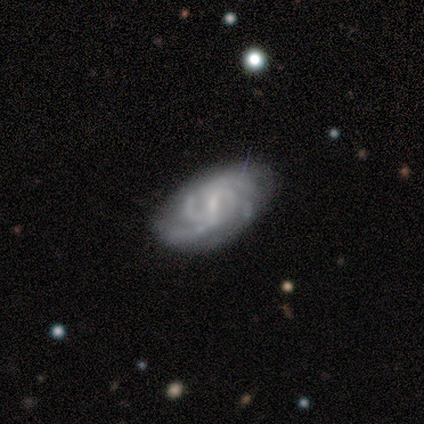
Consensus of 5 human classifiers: Smooth or featured? 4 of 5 (80%) said featured or disk. Edge-on disk? 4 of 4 (100%) said no. Bar? 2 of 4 (50%, tied with weak) said strong. Spiral arms? 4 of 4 (100%) said yes. Spiral winding? 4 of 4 (100%) said tight. Spiral arm count? 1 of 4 (25%, tied with 4, more than 4 and can't tell) said 3. Bulge size? 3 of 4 (75%) said small. Merging? 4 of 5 (80%) said none.